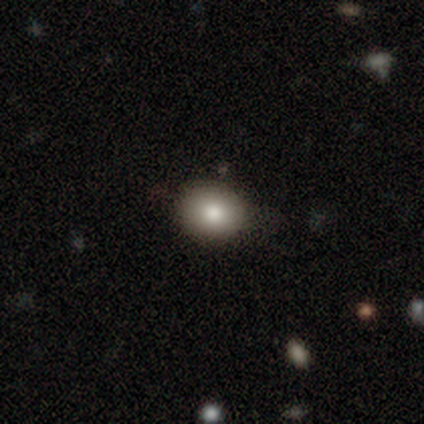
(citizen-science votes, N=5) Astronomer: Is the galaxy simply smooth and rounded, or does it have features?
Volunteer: smooth — 40%, tied with star or artifact at 40%.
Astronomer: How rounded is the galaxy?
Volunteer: round — 50%, tied with in between at 50%.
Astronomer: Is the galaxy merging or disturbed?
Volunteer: none — 67%.